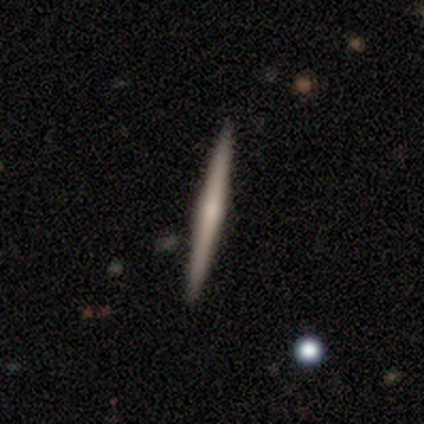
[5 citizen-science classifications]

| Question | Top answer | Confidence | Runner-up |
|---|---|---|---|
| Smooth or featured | featured or disk | 100% | — |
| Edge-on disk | yes | 100% | — |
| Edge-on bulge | rounded | 60% | none (40%) |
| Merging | none | 80% | minor disturbance (20%) |